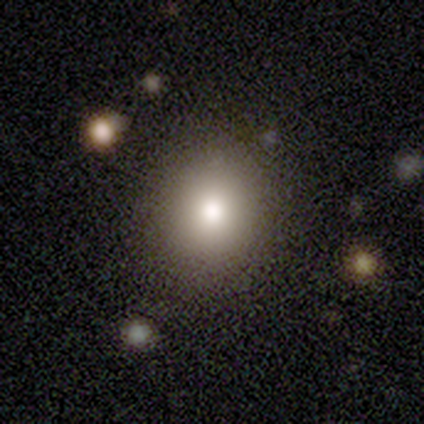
A smooth galaxy with no disk features (62%) that is round (78%).

Vote fractions:
- Smooth or featured? smooth: 62% / featured or disk: 21% / star or artifact: 17%
- How rounded? round: 78% / in between: 22% / cigar-shaped: 0%
- Merging? none: 88% / minor disturbance: 4% / major disturbance: 4% / merger: 4%